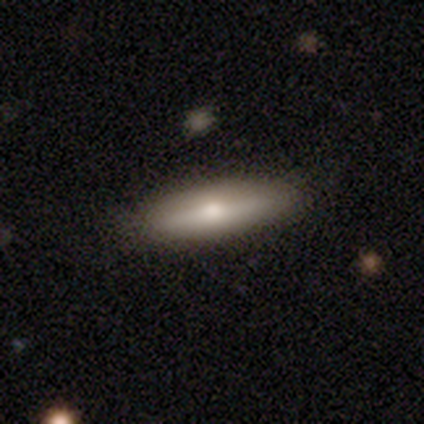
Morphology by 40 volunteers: smooth-or-featured: smooth: 65% | featured or disk: 25% | star or artifact: 10%
  how-rounded: cigar-shaped: 69% | in between: 23% | round: 8%
  merging: none: 86% | minor disturbance: 11% | merger: 3% | major disturbance: 0%